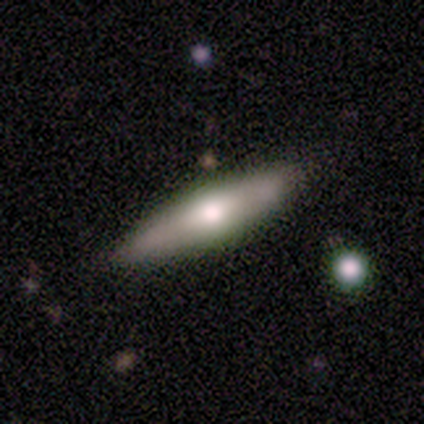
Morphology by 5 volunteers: type=featured or disk (60%); edge-on=yes (67%); edge-on bulge=rounded (100%); merging=none (80%).